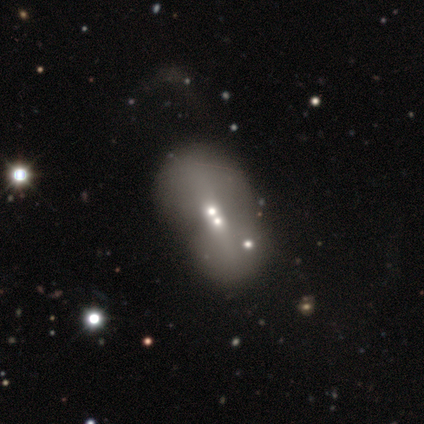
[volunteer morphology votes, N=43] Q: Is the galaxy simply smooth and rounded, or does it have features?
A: featured or disk — 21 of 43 (49%).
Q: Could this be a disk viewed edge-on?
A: no — 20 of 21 (95%).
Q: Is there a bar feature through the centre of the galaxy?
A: no — 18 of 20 (90%).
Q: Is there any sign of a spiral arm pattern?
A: no — 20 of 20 (100%).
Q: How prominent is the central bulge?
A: moderate — 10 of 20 (50%).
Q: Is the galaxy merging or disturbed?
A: merger — 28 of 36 (78%).